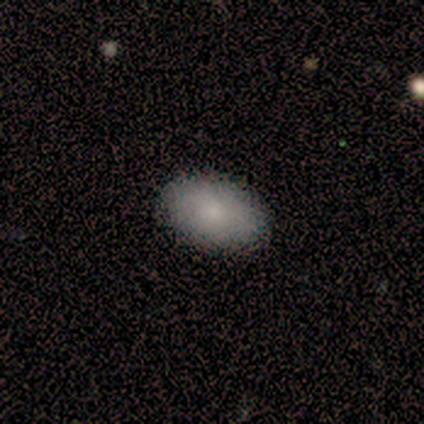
smooth 80%, star or artifact 20%, featured or disk 0%. Down the decision tree: how rounded — in between (100%); merging — none (100%).